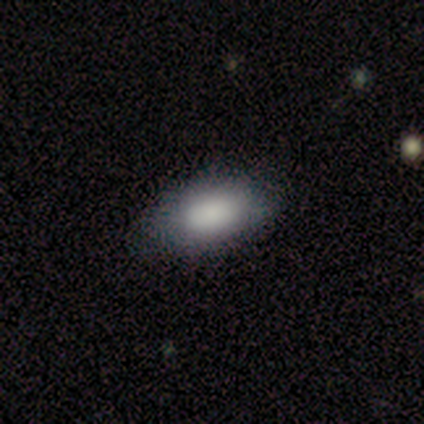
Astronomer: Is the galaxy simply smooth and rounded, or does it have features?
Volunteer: smooth — 85%.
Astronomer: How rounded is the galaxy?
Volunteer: in between — 94%.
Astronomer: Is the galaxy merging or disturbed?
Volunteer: none — 73%.